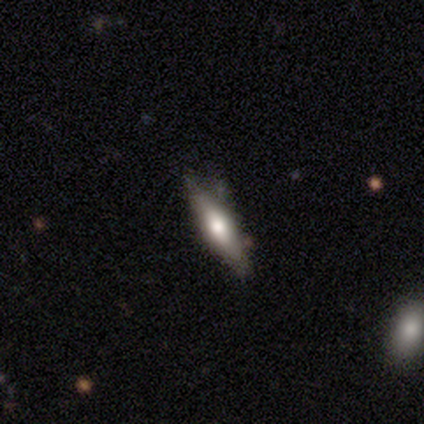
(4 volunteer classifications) smooth_or_featured: smooth (p=0.75) [alt: featured or disk p=0.25]
how_rounded: cigar-shaped (p=0.67) [alt: in between p=0.33]
merging: minor disturbance (p=0.75) [alt: none p=0.25]